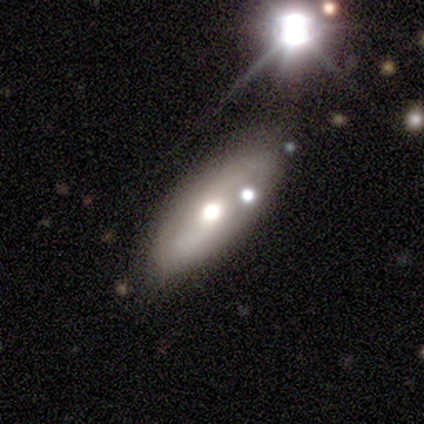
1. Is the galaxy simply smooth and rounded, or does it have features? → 53% smooth, 43% featured or disk, 4% star or artifact.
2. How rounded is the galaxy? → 75% in between, 19% cigar-shaped, 6% round.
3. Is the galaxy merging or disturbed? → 48% none, 11% minor disturbance, 9% merger, 3% major disturbance.